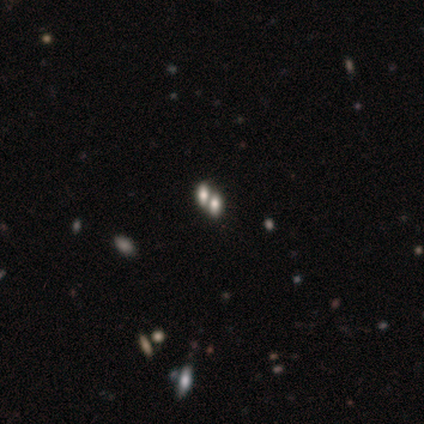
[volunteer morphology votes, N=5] Smooth or featured? 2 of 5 (40%, tied with featured or disk) said smooth. How rounded? 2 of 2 (100%) said in between. Merging? 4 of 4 (100%) said merger.